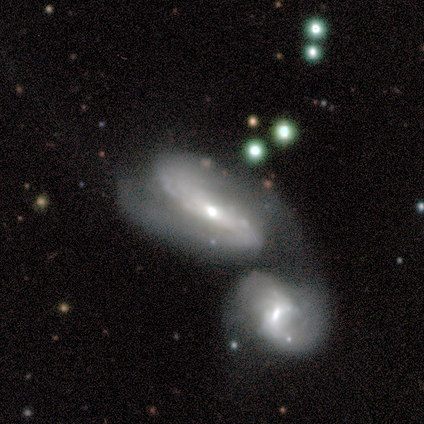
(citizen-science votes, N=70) Morphology: type=featured or disk (90%); edge-on=no (95%); bar=no (42%); spiral arms=yes (95%); winding=medium (53%); arm count=2 (84%); bulge=moderate (50%); merging=merger (79%).